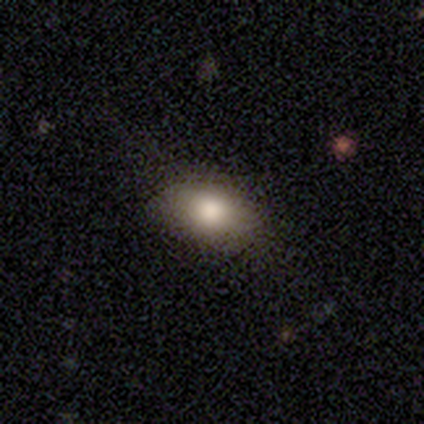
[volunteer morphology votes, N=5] smooth_or_featured: smooth (p=0.40) [tied with: star or artifact p=0.40]
how_rounded: in between (p=1.00)
merging: none (p=0.67) [alt: minor disturbance p=0.33]